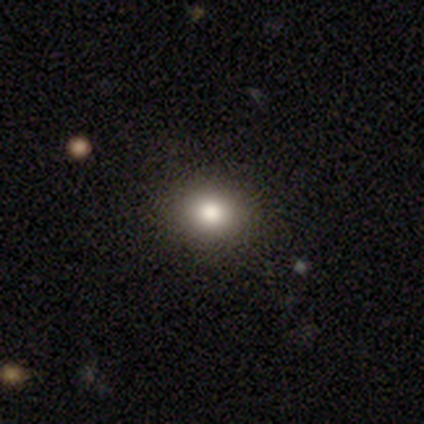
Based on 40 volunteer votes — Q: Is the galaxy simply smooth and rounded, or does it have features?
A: smooth — 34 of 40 (85%).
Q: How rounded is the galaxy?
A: round — 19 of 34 (56%).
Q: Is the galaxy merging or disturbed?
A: none — 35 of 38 (92%).